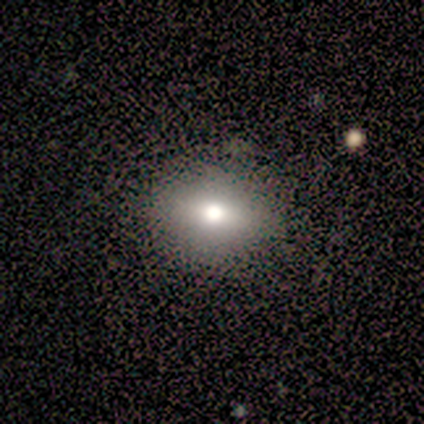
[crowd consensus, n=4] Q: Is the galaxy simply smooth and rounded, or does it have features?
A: featured or disk — 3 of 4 (75%).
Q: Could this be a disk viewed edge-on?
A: yes — 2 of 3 (67%).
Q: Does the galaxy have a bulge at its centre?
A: rounded — 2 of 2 (100%).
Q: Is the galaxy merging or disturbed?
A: none — 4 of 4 (100%).